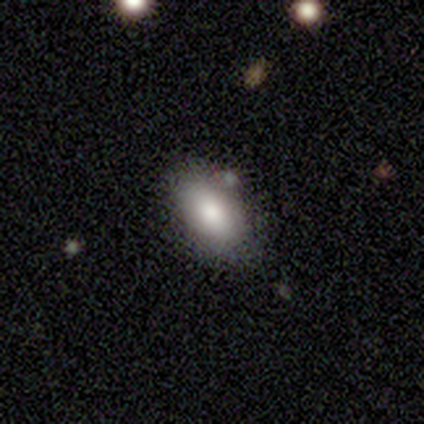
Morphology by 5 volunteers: type=smooth (80%); roundness=in between (75%); merging=none (75%).